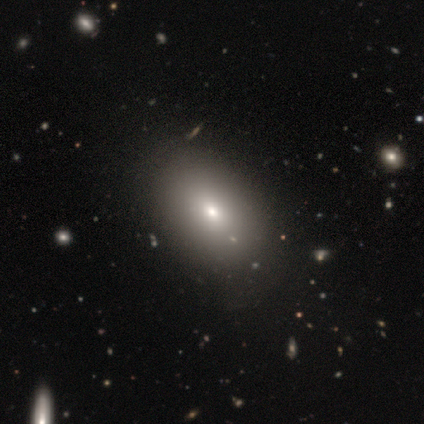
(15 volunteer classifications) Smooth or featured? 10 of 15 (67%) said smooth. How rounded? 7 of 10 (70%) said in between. Merging? 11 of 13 (85%) said none.